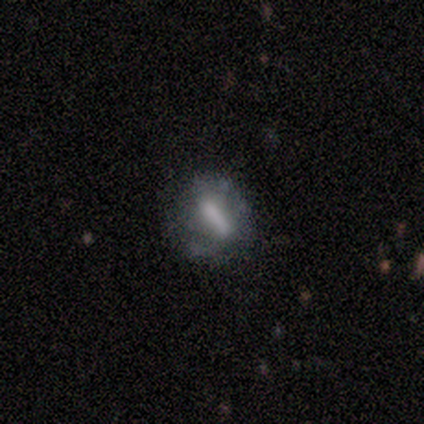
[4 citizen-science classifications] Smooth or featured? smooth (75%)
How rounded? cigar-shaped (67%)
Merging? none (75%)